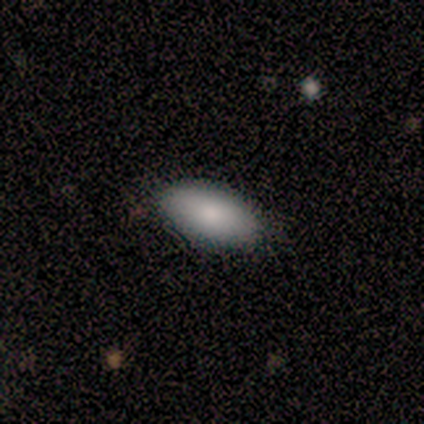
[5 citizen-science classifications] smooth_or_featured: smooth (p=0.80) [alt: featured or disk p=0.20]
how_rounded: in between (p=1.00)
merging: none (p=0.80) [alt: merger p=0.20]